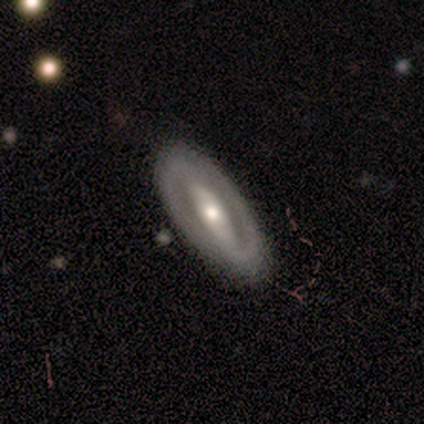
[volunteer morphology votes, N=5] A featured or disk galaxy (100%) with a strong bar (60%), no spiral arms (60%) and a moderate central bulge (100%). Merging: none (80%).